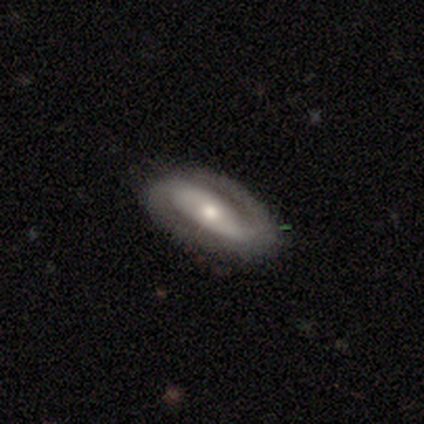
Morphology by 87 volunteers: Q: Smooth or featured?
A: featured or disk (78%); runner-up: smooth (14%)
Q: Edge-on disk?
A: no (94%); runner-up: yes (6%)
Q: Bar?
A: strong (39%); runner-up: weak (33%)
Q: Spiral arms?
A: yes (86%); runner-up: no (14%)
Q: Spiral winding?
A: tight (42%); runner-up: medium (40%)
Q: Spiral arm count?
A: 2 (91%); runner-up: 1 (5%)
Q: Bulge size?
A: moderate (55%); runner-up: small (34%)
Q: Merging?
A: none (86%); runner-up: minor disturbance (10%)